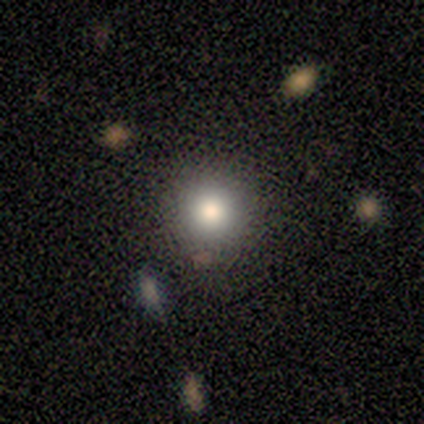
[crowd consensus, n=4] smooth-or-featured: smooth: 75% | star or artifact: 25% | featured or disk: 0%
  how-rounded: round: 100% | in between: 0% | cigar-shaped: 0%
  merging: none: 100% | minor disturbance: 0% | major disturbance: 0% | merger: 0%